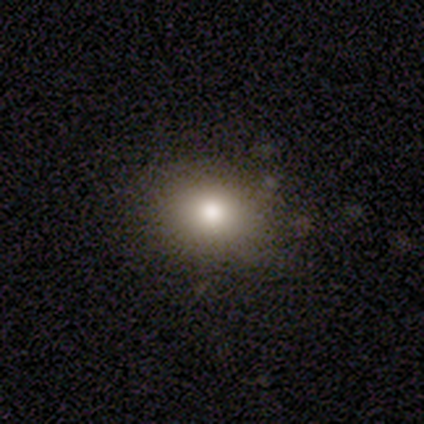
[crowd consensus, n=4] A smooth galaxy with no disk features (50%) that is round (50%, tied with in between).

Vote fractions:
- Smooth or featured? smooth: 50% / featured or disk: 25% / star or artifact: 25%
- How rounded? round: 50% (tied) / in between: 50% (tied) / cigar-shaped: 0%
- Merging? none: 67% / major disturbance: 33% / minor disturbance: 0% / merger: 0%